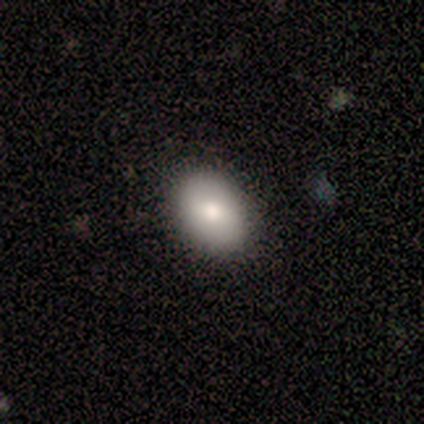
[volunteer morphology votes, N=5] Smooth or featured?
  - smooth: 100% *
  - featured or disk: 0%
  - star or artifact: 0%
How rounded?
  - in between: 80% *
  - round: 20%
  - cigar-shaped: 0%
Merging?
  - none: 100% *
  - minor disturbance: 0%
  - major disturbance: 0%
  - merger: 0%